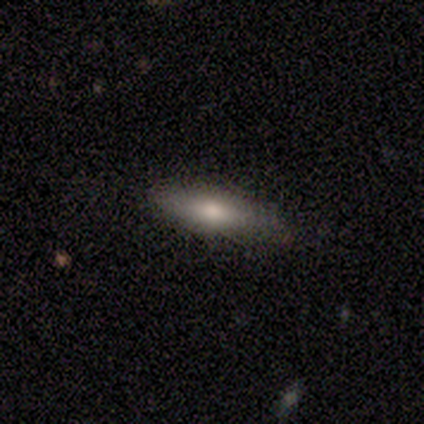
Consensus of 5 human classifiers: A smooth galaxy with no disk features (100%) that is in between round and cigar-shaped (60%). Merging: none (80%).